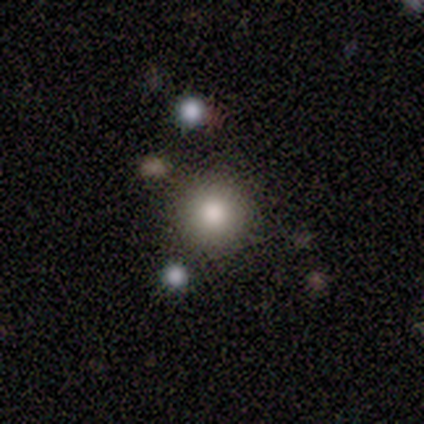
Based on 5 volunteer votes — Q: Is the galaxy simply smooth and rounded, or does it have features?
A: smooth — 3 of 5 (60%).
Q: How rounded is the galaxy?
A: round — 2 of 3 (67%).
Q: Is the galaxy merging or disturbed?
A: none — 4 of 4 (100%).